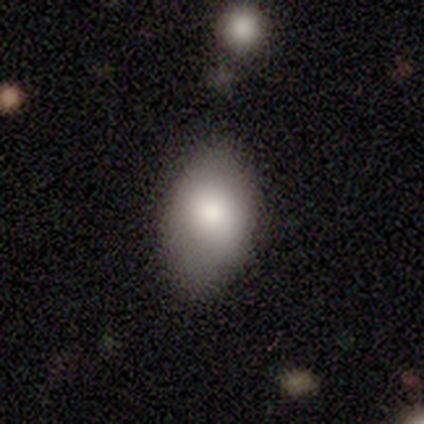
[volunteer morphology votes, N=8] This is clearly a smooth galaxy (88%). How rounded: clearly in between (86%). Merging: likely none (75%).